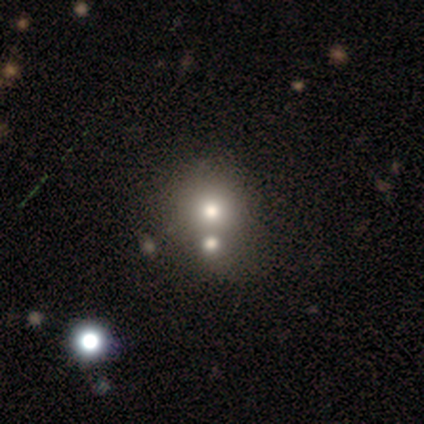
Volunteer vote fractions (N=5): Volunteers were most divided on "smooth or featured": star or artifact: 80%, smooth: 20%, featured or disk: 0%.